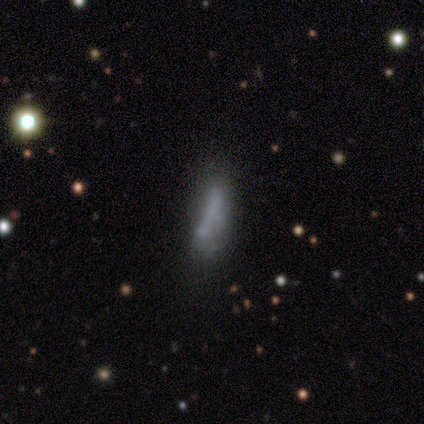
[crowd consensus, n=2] smooth-or-featured: smooth: 100% | featured or disk: 0% | star or artifact: 0%
  how-rounded: in between: 100% | round: 0% | cigar-shaped: 0%
  merging: none: 50% (tied) | major disturbance: 50% (tied) | minor disturbance: 0% | merger: 0%